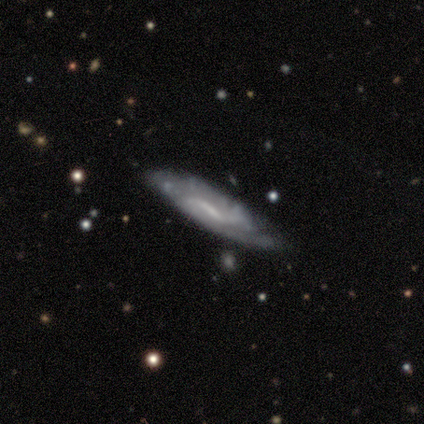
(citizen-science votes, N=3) Overall: featured or disk (67%; smooth 33%). Edge-on disk: yes (100%). Edge-on bulge: none (50%, tied with rounded). Merging: minor disturbance (67%; none 33%).